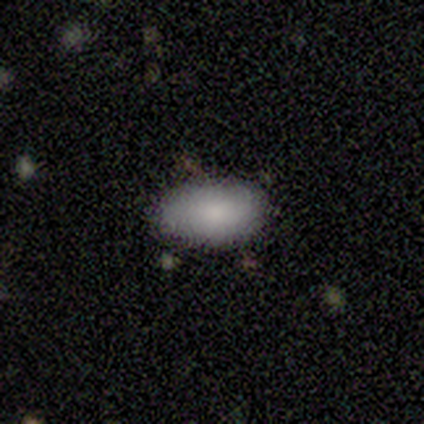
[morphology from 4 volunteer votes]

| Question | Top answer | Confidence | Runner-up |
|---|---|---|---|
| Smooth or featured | smooth | 100% | — |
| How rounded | in between | 100% | — |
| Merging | none | 100% | — |